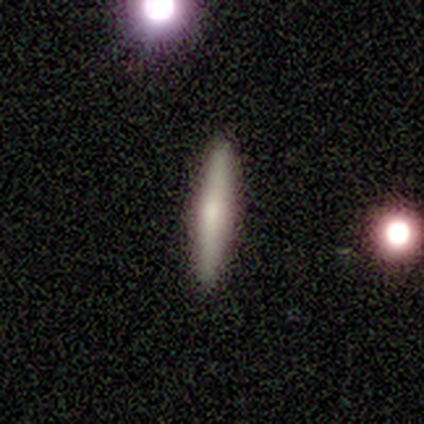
Smooth or featured: featured or disk — 60% (smooth — 40%)
Edge-on disk: yes — 100%
Edge-on bulge: rounded — 100%
Merging: none — 100%